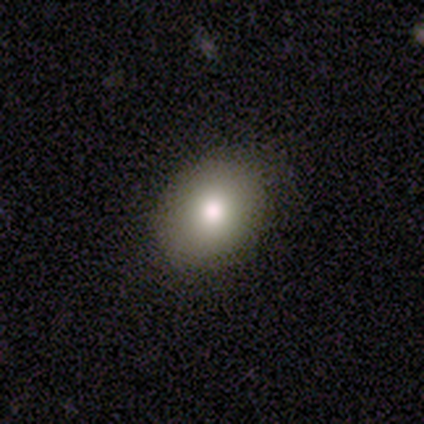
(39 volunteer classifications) A smooth galaxy with no disk features (69%) that is in between round and cigar-shaped (52%).

Vote fractions:
- Smooth or featured? smooth: 69% / featured or disk: 18% / star or artifact: 13%
- How rounded? in between: 52% / round: 48% / cigar-shaped: 0%
- Merging? none: 88% / minor disturbance: 12% / major disturbance: 0% / merger: 0%